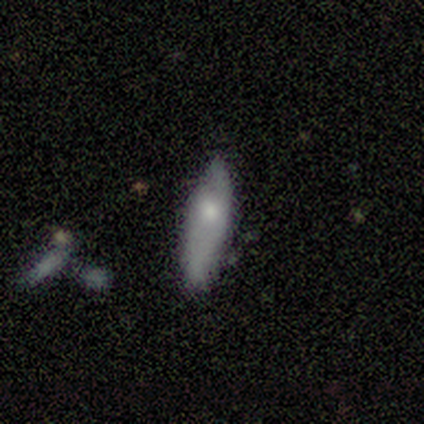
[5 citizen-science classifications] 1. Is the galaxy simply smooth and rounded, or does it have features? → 100% smooth, 0% featured or disk, 0% star or artifact.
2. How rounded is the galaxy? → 60% cigar-shaped, 40% in between, 0% round.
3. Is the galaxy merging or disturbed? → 80% none, 20% minor disturbance, 0% major disturbance, 0% merger.